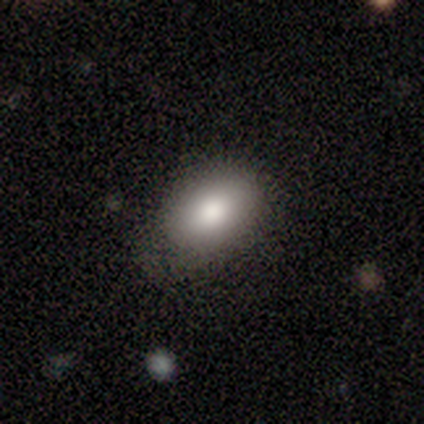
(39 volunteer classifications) This is clearly a smooth galaxy (87%). How rounded: clearly in between (85%). Merging: possibly none (53%).